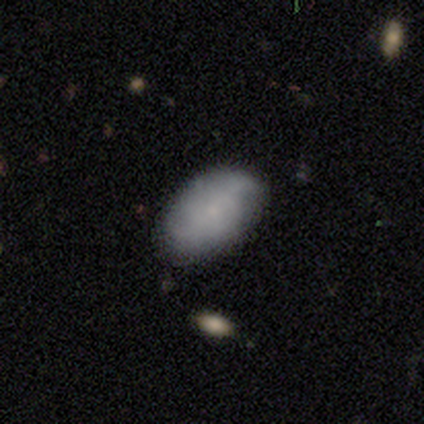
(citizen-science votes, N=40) Smooth or featured: smooth — 60% (featured or disk — 35%)
How rounded: in between — 83% (round — 12%)
Merging: none — 84% (minor disturbance — 13%)